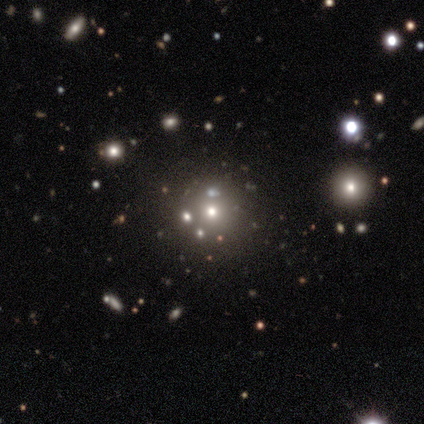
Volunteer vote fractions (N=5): Smooth or featured: star or artifact — 60% (smooth — 40%)